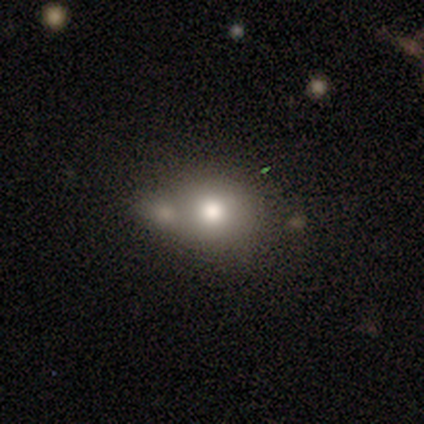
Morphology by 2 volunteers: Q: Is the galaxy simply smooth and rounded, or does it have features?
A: smooth — 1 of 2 (50%, tied with star or artifact).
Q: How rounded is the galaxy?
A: round — 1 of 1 (100%).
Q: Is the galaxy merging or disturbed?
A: merger — 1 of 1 (100%).